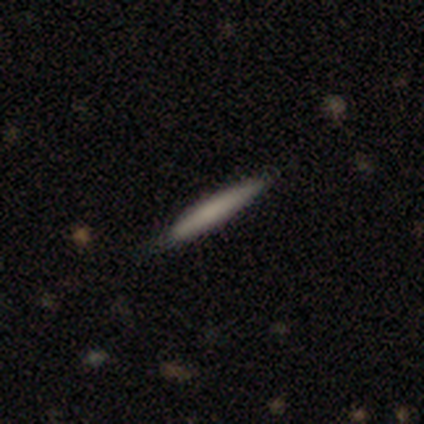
Q: Smooth or featured?
A: smooth (80%); runner-up: featured or disk (20%)
Q: How rounded?
A: cigar-shaped (100%)
Q: Merging?
A: none (80%); runner-up: merger (20%)